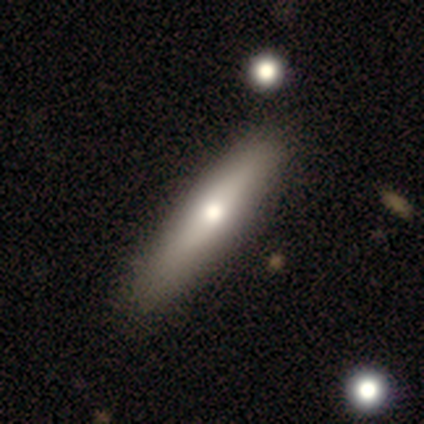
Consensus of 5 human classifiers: This appears to be a featured or disk galaxy (60%) with a weak bar (50%, tied with no), 2 (100%) tight (100%) spiral arms (50%, tied with no) and a large central bulge (50%, tied with small). Merging: none (100%).